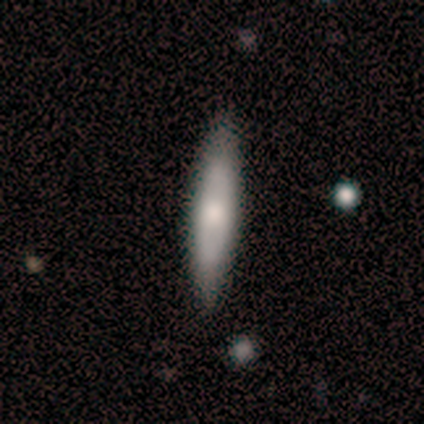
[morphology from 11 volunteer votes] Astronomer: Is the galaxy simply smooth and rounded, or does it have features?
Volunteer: smooth — 55% (runner-up: featured or disk, 36%).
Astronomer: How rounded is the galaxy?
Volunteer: cigar-shaped — 100%.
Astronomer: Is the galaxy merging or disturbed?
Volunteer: none — 90%.